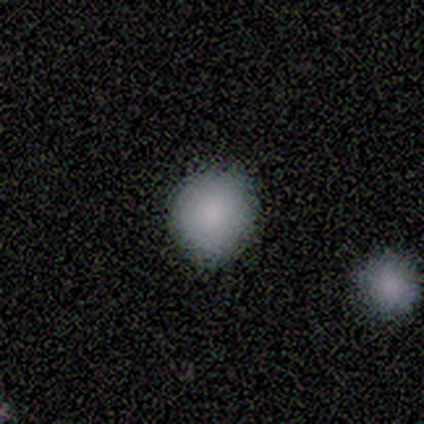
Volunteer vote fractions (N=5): Morphology: type=smooth (100%); roundness=round (60%); merging=none (100%).